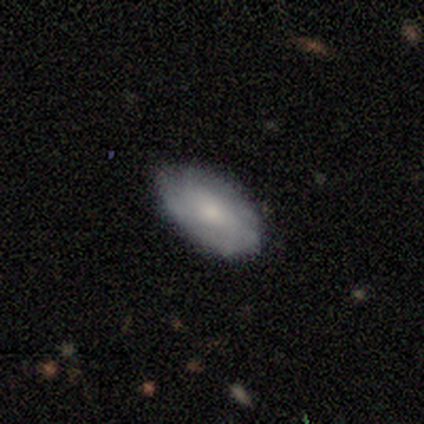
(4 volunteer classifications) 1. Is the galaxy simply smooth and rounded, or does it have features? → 75% smooth, 25% featured or disk, 0% star or artifact.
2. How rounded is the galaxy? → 100% in between, 0% round, 0% cigar-shaped.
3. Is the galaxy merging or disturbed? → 100% none, 0% minor disturbance, 0% major disturbance, 0% merger.